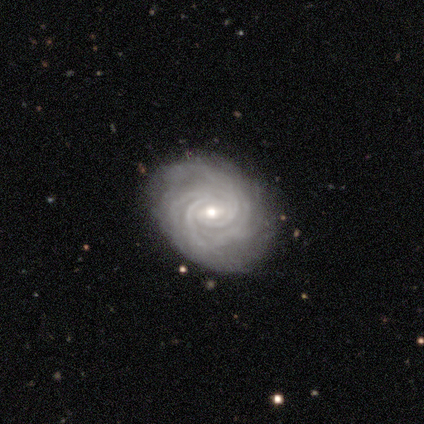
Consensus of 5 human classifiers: Smooth or featured? featured or disk (100%)
Edge-on disk? no (100%)
Bar? weak (80%)
Spiral arms? yes (100%)
Spiral winding? tight (80%)
Spiral arm count? 4 (60%)
Bulge size? moderate (80%)
Merging? none (100%)